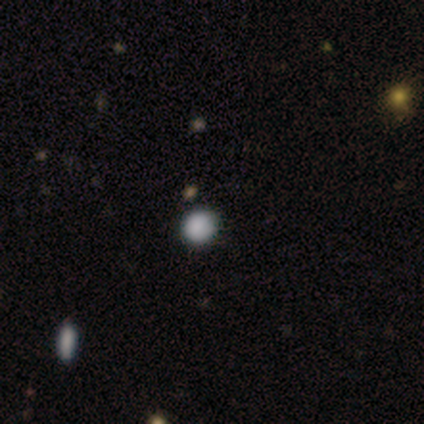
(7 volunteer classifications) Smooth or featured? 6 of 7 (86%) said smooth. How rounded? 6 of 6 (100%) said round. Merging? 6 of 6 (100%) said none.